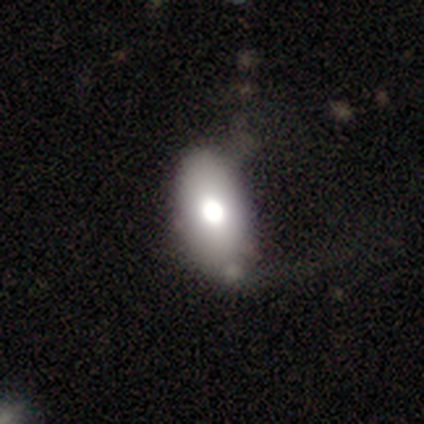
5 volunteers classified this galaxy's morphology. A smooth galaxy with no disk features (60%) that is in between round and cigar-shaped (100%). Merging: minor disturbance (40%).